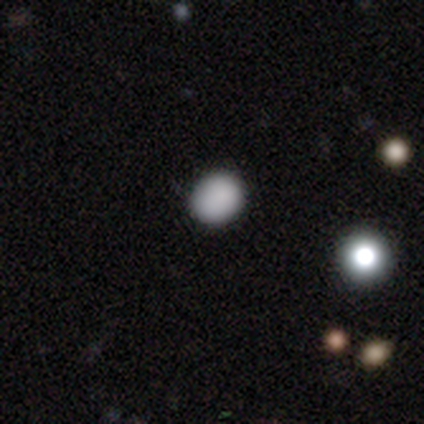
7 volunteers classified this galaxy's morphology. smooth_or_featured: smooth (p=0.57) [alt: star or artifact p=0.43]
how_rounded: round (p=0.50) [tied with: in between p=0.50]
merging: none (p=1.00)